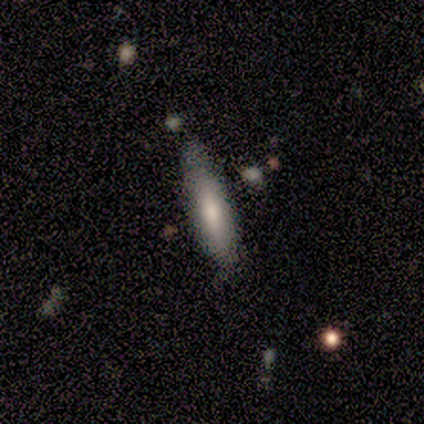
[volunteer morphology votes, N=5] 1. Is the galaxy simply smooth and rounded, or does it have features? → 80% smooth, 20% featured or disk, 0% star or artifact.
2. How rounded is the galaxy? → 75% cigar-shaped, 25% in between, 0% round.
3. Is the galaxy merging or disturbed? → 60% none, 40% minor disturbance, 0% major disturbance, 0% merger.